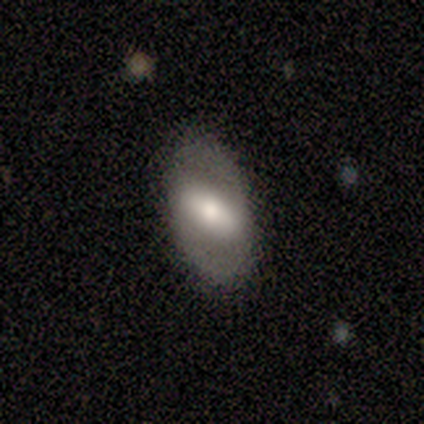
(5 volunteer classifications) A featured or disk galaxy (60%) with a strong bar (67%), no spiral arms (67%) and a moderate central bulge (67%). Merging: none (100%).